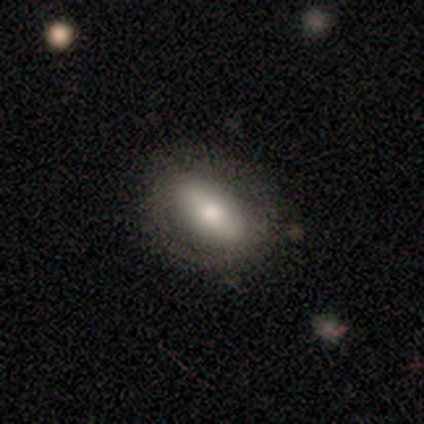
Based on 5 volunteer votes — smooth-or-featured: smooth: 60% | featured or disk: 40% | star or artifact: 0%
  how-rounded: in between: 100% | round: 0% | cigar-shaped: 0%
  merging: none: 60% | minor disturbance: 40% | major disturbance: 0% | merger: 0%